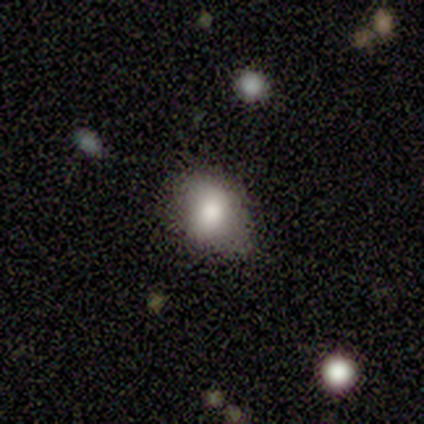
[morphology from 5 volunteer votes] smooth-or-featured: smooth: 60% | featured or disk: 40% | star or artifact: 0%
  how-rounded: in between: 67% | round: 33% | cigar-shaped: 0%
  merging: minor disturbance: 80% | none: 20% | major disturbance: 0% | merger: 0%